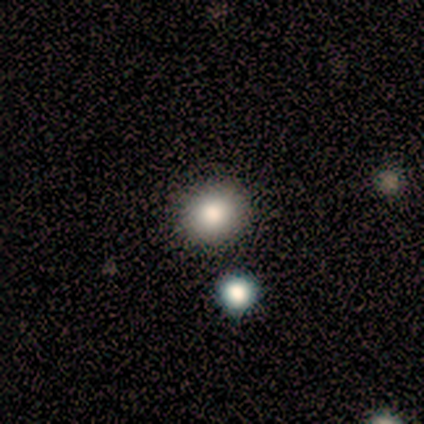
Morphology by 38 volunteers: Smooth or featured: smooth — 71% (featured or disk — 18%)
How rounded: round — 93% (in between — 7%)
Merging: none — 85% (merger — 12%)